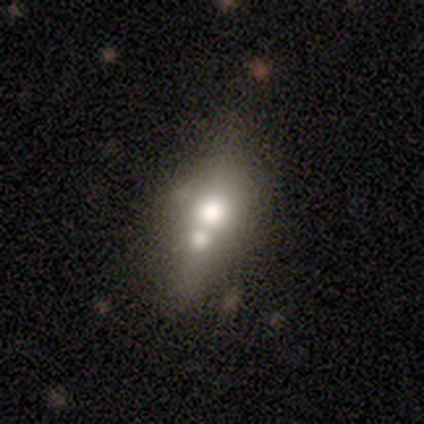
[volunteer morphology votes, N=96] This is possibly a smooth galaxy (55%). How rounded: likely in between (62%). Merging: possibly merger (51%).